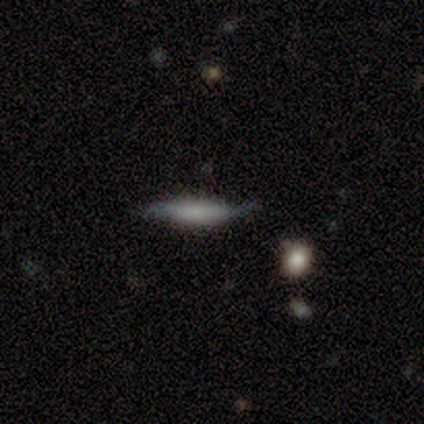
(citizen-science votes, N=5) smooth 60%, featured or disk 20%, star or artifact 20%. Down the decision tree: how rounded — cigar-shaped (67%); merging — none (75%).